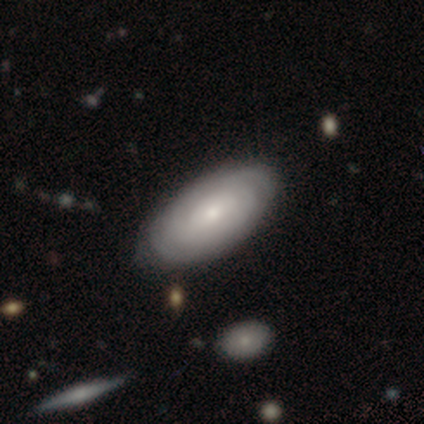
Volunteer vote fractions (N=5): Morphology: type=smooth (60%); roundness=in between (100%); merging=none (60%).